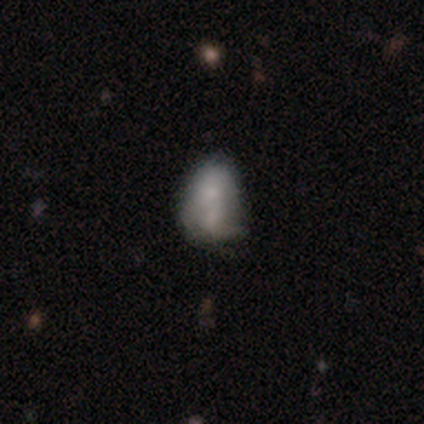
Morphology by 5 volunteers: This appears to be a smooth galaxy with no disk features (80%) that is in between round and cigar-shaped (75%). Merging: merger (40%).